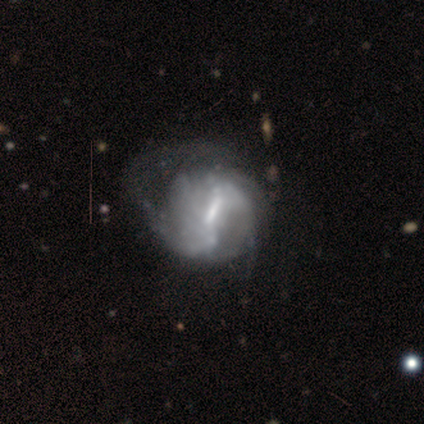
Smooth or featured? 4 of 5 (80%) said featured or disk. Edge-on disk? 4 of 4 (100%) said no. Bar? 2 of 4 (50%, tied with weak) said strong. Spiral arms? 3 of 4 (75%) said yes. Spiral winding? 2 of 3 (67%) said medium. Spiral arm count? 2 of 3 (67%) said 2. Bulge size? 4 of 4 (100%) said small. Merging? 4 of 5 (80%) said major disturbance.